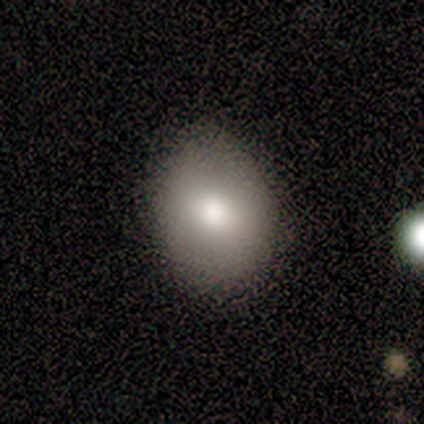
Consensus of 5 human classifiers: Smooth or featured: smooth — 80% (featured or disk — 20%)
How rounded: round — 75% (in between — 25%)
Merging: none — 100%